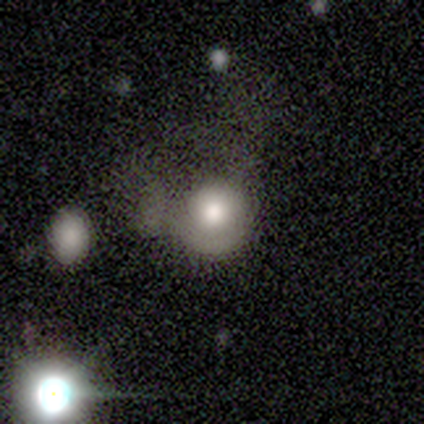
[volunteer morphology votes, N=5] A smooth galaxy with no disk features (60%) that is round (100%). Merging: major disturbance (100%).